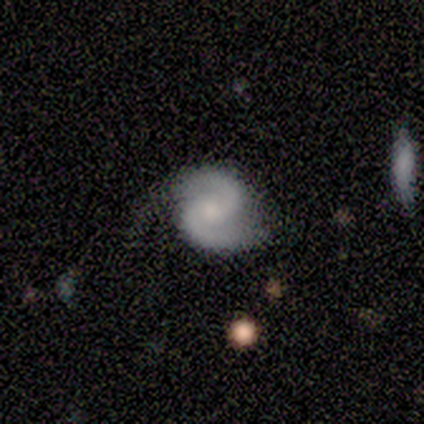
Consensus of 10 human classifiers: Smooth or featured: featured or disk — 90% (smooth — 10%)
Edge-on disk: no — 100%
Bar: no — 56% (weak — 33%)
Spiral arms: yes — 100%
Spiral winding: medium — 67% (tight — 33%)
Spiral arm count: 2 — 100%
Bulge size: small — 56% (none — 44%)
Merging: none — 60% (minor disturbance — 30%)